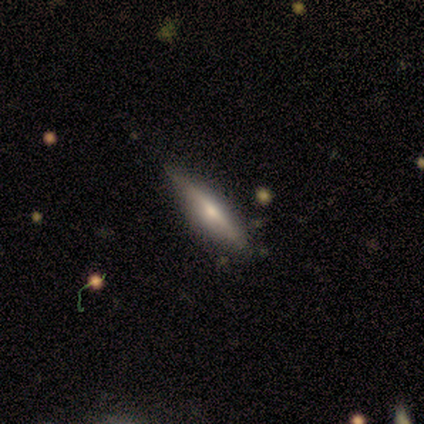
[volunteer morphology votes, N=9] smooth 56%, featured or disk 44%, star or artifact 0%. Down the decision tree: how rounded — cigar-shaped (80%); merging — none (78%).